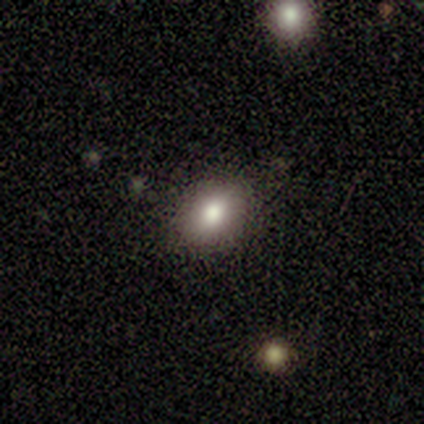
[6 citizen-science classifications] smooth 100%, featured or disk 0%, star or artifact 0%. Down the decision tree: how rounded — round (50%, tied with in between); merging — none (100%).